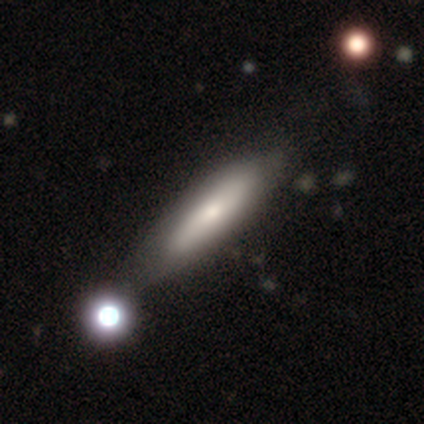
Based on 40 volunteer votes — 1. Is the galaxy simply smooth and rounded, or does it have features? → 62% smooth, 38% featured or disk, 0% star or artifact.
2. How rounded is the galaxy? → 72% cigar-shaped, 28% in between, 0% round.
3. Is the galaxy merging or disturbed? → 35% none, 15% minor disturbance, 10% merger, 2% major disturbance.